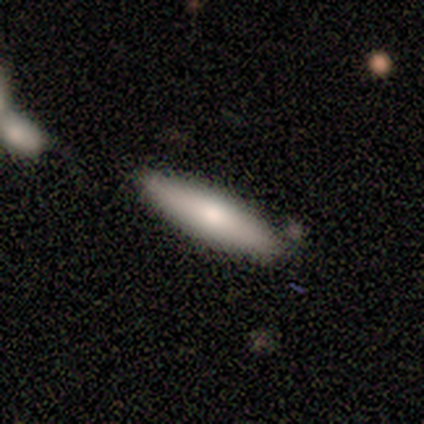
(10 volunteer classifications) Q: Smooth or featured?
A: smooth (70%); runner-up: featured or disk (30%)
Q: How rounded?
A: cigar-shaped (71%); runner-up: in between (29%)
Q: Merging?
A: none (90%); runner-up: merger (10%)